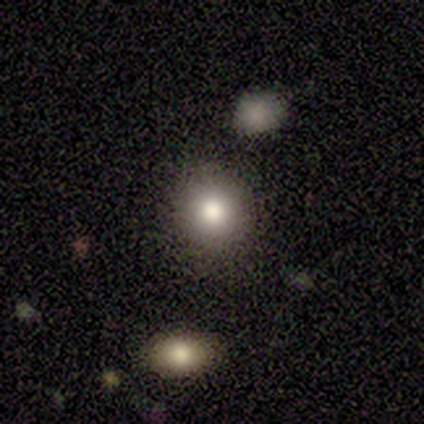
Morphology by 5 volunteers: Smooth or featured? smooth (100%)
How rounded? round (100%)
Merging? none (80%)